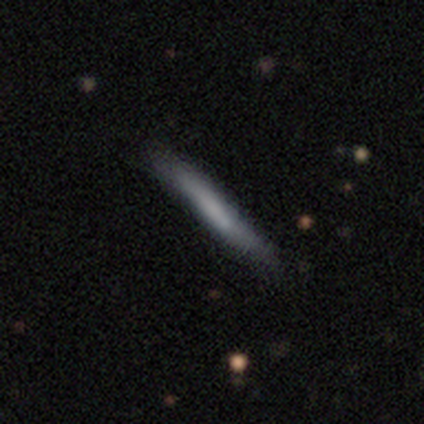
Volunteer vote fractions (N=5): Q: Smooth or featured?
A: featured or disk (60%); runner-up: smooth (40%)
Q: Edge-on disk?
A: yes (100%)
Q: Edge-on bulge?
A: none (100%)
Q: Merging?
A: none (80%); runner-up: minor disturbance (20%)